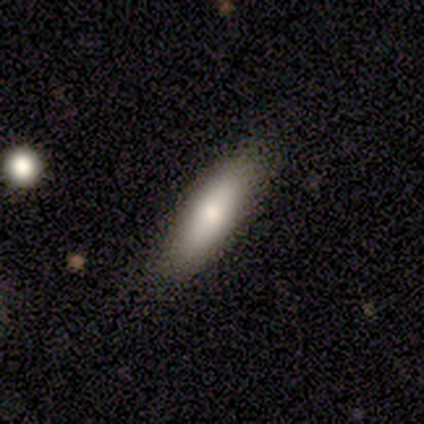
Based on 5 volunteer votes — Smooth or featured? smooth (60%)
How rounded? in between (67%)
Merging? none (60%)